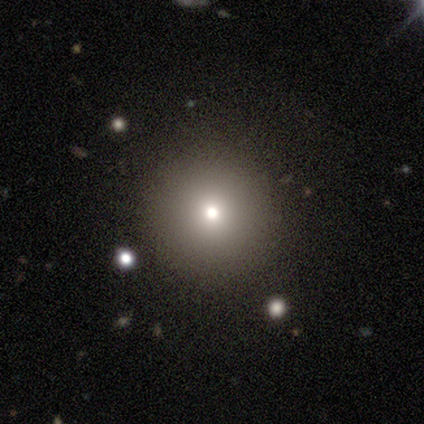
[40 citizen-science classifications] Smooth or featured?
  - smooth: 72% *
  - star or artifact: 15%
  - featured or disk: 12%
How rounded?
  - round: 100% *
  - in between: 0%
  - cigar-shaped: 0%
Merging?
  - none: 88% *
  - major disturbance: 9%
  - minor disturbance: 3%
  - merger: 0%